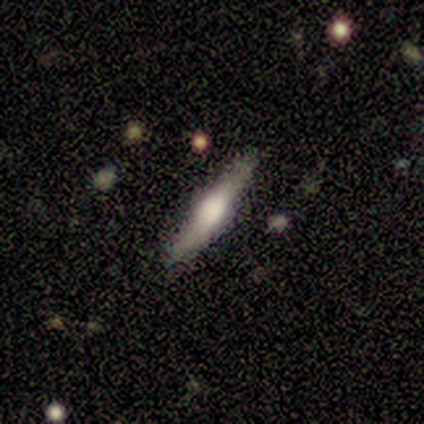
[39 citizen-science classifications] This is possibly a featured or disk galaxy (51%). It is clearly viewed edge-on (95%). Edge-on bulge: clearly rounded (84%). Merging: clearly none (89%).